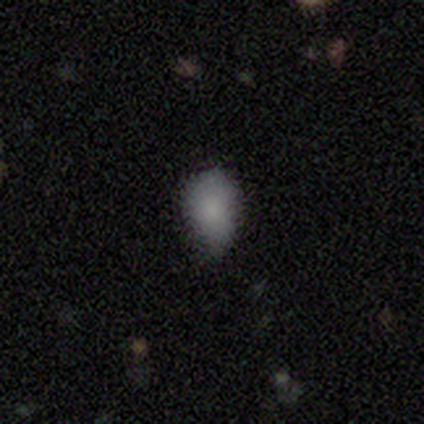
smooth 100%, featured or disk 0%, star or artifact 0%. Down the decision tree: how rounded — in between (60%); merging — minor disturbance (60%).